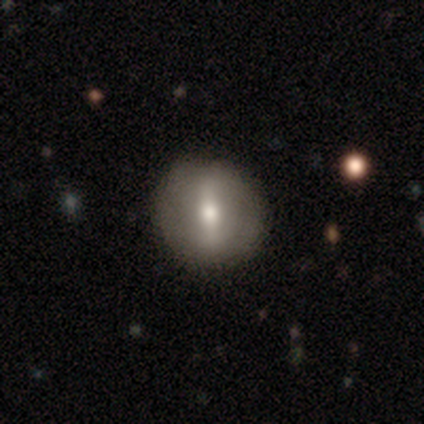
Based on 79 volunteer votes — Morphology: type=featured or disk (62%); edge-on=no (94%); bar=strong (65%); spiral arms=no (78%); bulge=moderate (67%); merging=none (45%).